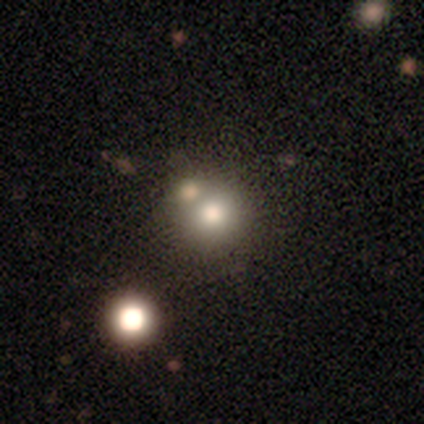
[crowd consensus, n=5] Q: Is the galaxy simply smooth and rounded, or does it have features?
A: star or artifact — 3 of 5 (60%).